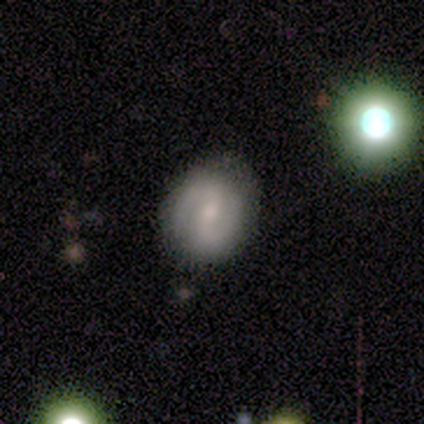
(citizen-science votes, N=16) Overall: featured or disk (88%). Edge-on disk: no (79%). Bar: weak (64%; strong 27%). Spiral arms: yes (100%). Spiral arm count: 2 (100%). Spiral winding: tight (55%; medium 36%). Bulge size: small (64%; moderate 36%). Merging: none (88%).